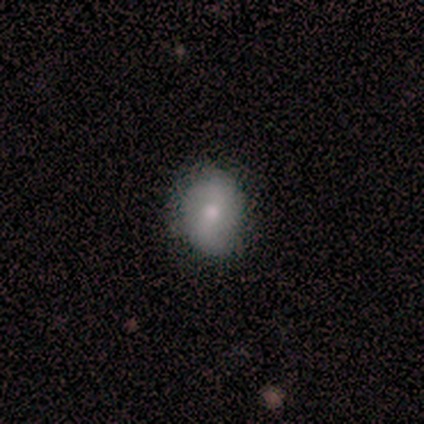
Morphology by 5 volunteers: A smooth galaxy with no disk features (80%) that is round (50%, tied with in between). Merging: none (60%).